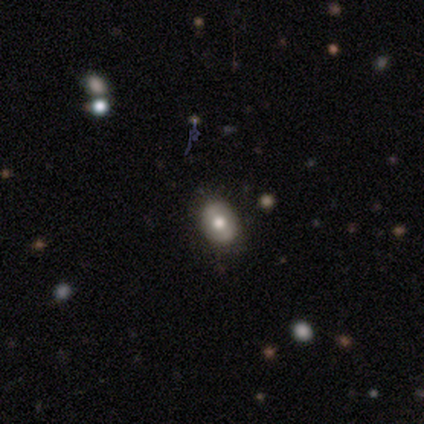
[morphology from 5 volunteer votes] Volunteers were most divided on "how rounded": round: 67%, in between: 33%, cigar-shaped: 0%. More confident: merging — none (75%); smooth or featured — smooth (60%).